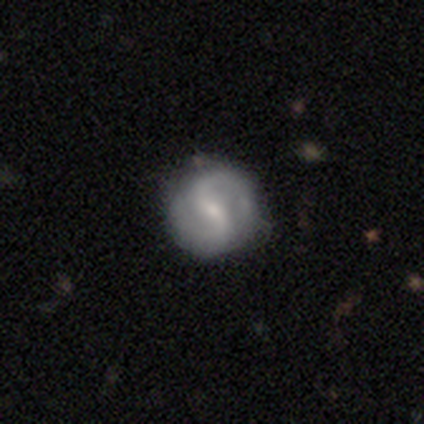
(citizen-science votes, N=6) Overall: featured or disk (100%). Edge-on disk: no (100%). Bar: strong (33%, tied with weak and no). Spiral arms: yes (100%). Spiral arm count: 2 (100%). Spiral winding: tight (50%; loose 33%). Bulge size: small (67%; moderate 33%). Merging: none (83%).